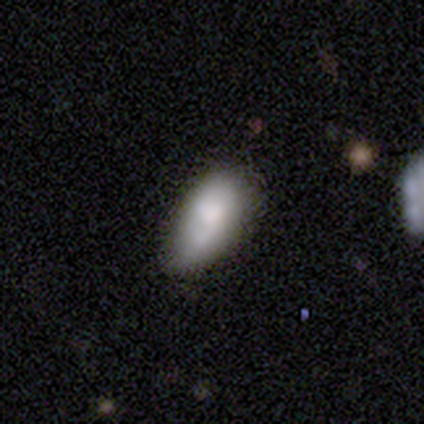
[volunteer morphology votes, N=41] smooth-or-featured: smooth: 85% | featured or disk: 10% | star or artifact: 5%
  how-rounded: in between: 89% | cigar-shaped: 11% | round: 0%
  merging: none: 49% | minor disturbance: 41% | merger: 10% | major disturbance: 0%